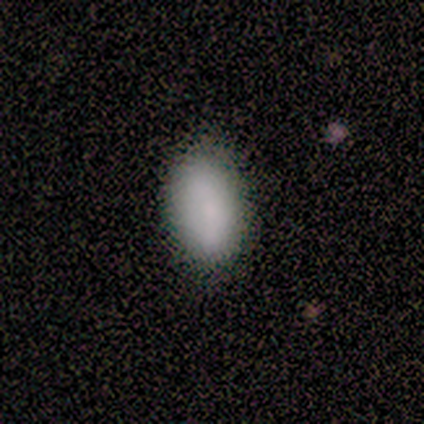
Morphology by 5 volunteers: Smooth or featured?
  - smooth: 100% *
  - featured or disk: 0%
  - star or artifact: 0%
How rounded?
  - in between: 100% *
  - round: 0%
  - cigar-shaped: 0%
Merging?
  - none: 100% *
  - minor disturbance: 0%
  - major disturbance: 0%
  - merger: 0%